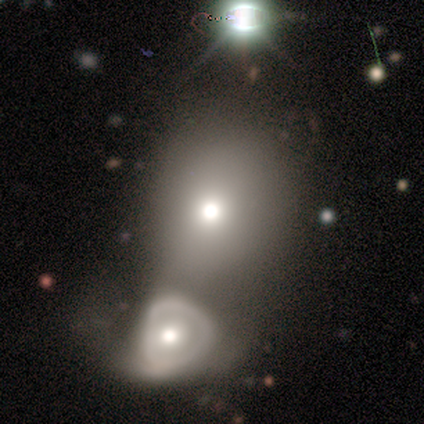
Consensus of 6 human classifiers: This is clearly a smooth galaxy (83%). How rounded: likely in between (60%). Merging: likely merger (67%).